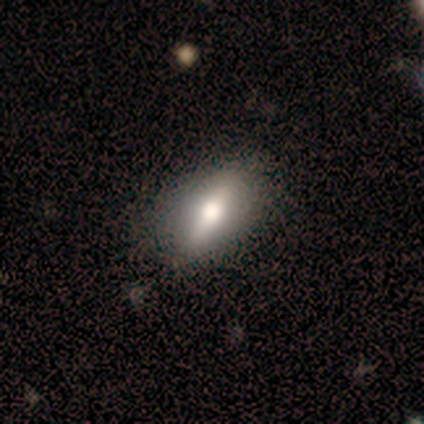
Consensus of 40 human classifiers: smooth-or-featured: featured or disk: 52% | smooth: 45% | star or artifact: 2%
  disk-edge-on: yes: 67% | no: 33%
    edge-on-bulge: rounded: 86% | boxy: 14% | none: 0%
  merging: none: 69% | minor disturbance: 23% | major disturbance: 8% | merger: 0%